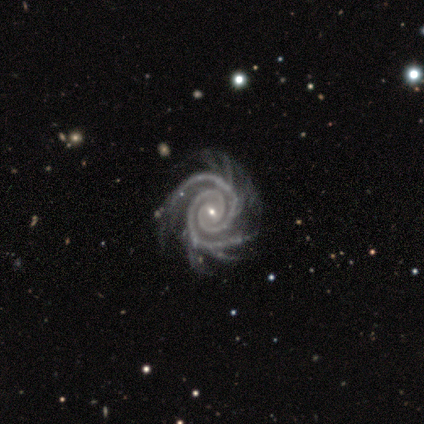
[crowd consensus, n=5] smooth-or-featured: featured or disk: 100% | smooth: 0% | star or artifact: 0%
  disk-edge-on: no: 100% | yes: 0%
    bar: weak: 60% | no: 40% | strong: 0%
    has-spiral-arms: yes: 100% | no: 0%
      spiral-winding: tight: 80% | medium: 20% | loose: 0%
      spiral-arm-count: 2: 80% | more than 4: 20% | 1: 0% | 3: 0% | 4: 0% | can't tell: 0%
    bulge-size: small: 60% | moderate: 40% | dominant: 0% | large: 0% | none: 0%
  merging: none: 60% | minor disturbance: 40% | major disturbance: 0% | merger: 0%